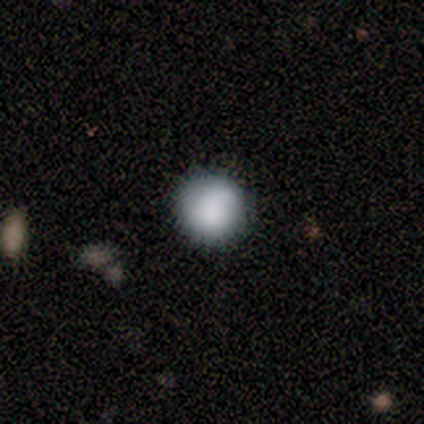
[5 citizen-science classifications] Smooth or featured? 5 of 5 (100%) said smooth. How rounded? 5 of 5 (100%) said round. Merging? 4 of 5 (80%) said none.